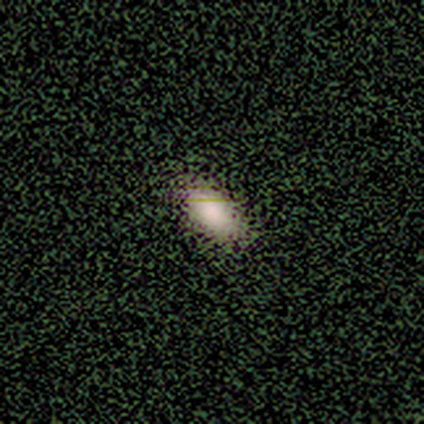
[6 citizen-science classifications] smooth 100%, featured or disk 0%, star or artifact 0%. Down the decision tree: how rounded — in between (83%); merging — none (100%).